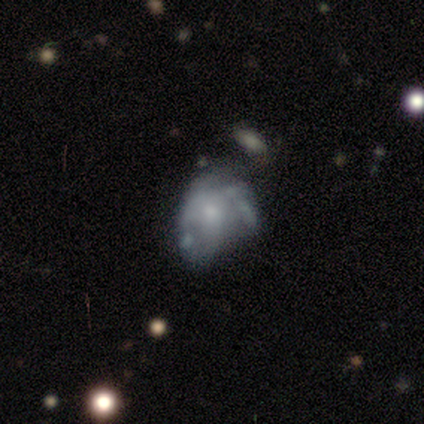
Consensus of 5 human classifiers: smooth-or-featured: smooth: 60% | featured or disk: 40% | star or artifact: 0%
  how-rounded: in between: 100% | round: 0% | cigar-shaped: 0%
  merging: minor disturbance: 80% | major disturbance: 20% | none: 0% | merger: 0%